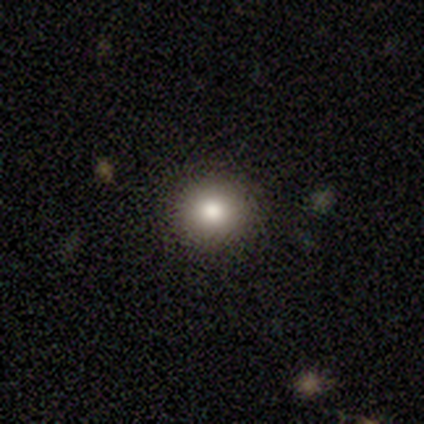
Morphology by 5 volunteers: smooth_or_featured: smooth (p=0.60) [alt: star or artifact p=0.40]
how_rounded: round (p=0.67) [alt: in between p=0.33]
merging: none (p=0.67) [alt: minor disturbance p=0.33]